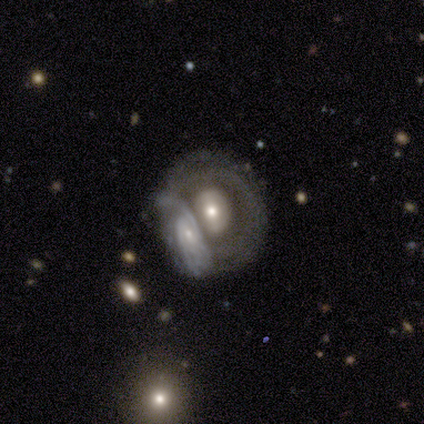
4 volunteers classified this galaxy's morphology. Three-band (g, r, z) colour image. It shows a featured or disk galaxy (100%) with no bar (67%), 1 (50%, tied with 2) tight (50%, tied with medium) spiral arms (67%) and a moderate central bulge (67%). Merging: none (75%).